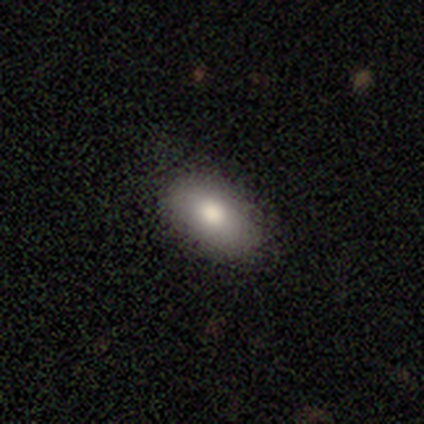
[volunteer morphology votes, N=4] A smooth galaxy with no disk features (100%) that is in between round and cigar-shaped (100%). Merging: none (100%).